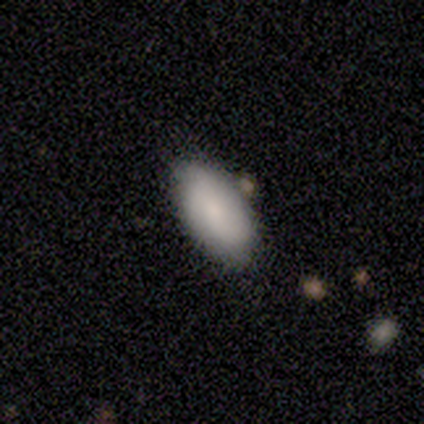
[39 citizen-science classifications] smooth 82%, featured or disk 15%, star or artifact 3%. Down the decision tree: how rounded — in between (97%); merging — none (76%).